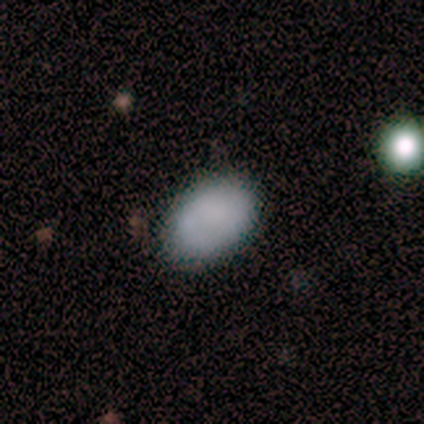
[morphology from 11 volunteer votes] smooth-or-featured: smooth: 100% | featured or disk: 0% | star or artifact: 0%
  how-rounded: in between: 100% | round: 0% | cigar-shaped: 0%
  merging: none: 82% | minor disturbance: 18% | major disturbance: 0% | merger: 0%